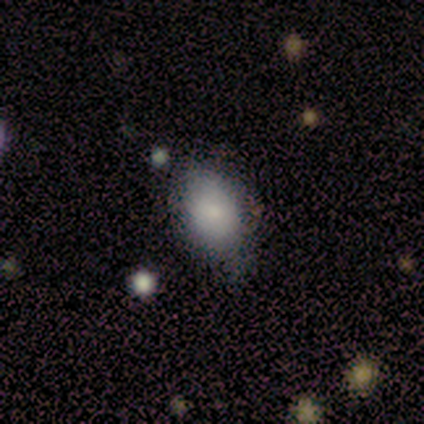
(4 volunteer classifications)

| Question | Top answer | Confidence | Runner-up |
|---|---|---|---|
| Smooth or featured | smooth | 75% | featured or disk (25%) |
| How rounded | in between | 100% | — |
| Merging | none | 75% | minor disturbance (25%) |